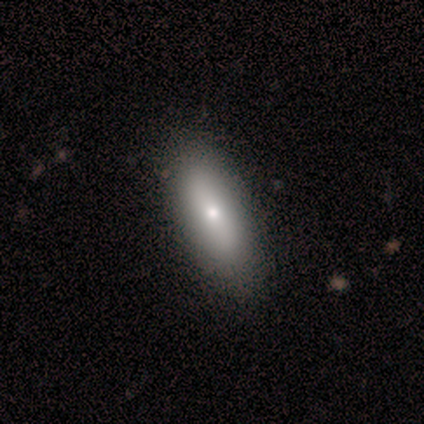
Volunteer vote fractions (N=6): This is possibly a smooth galaxy (50%, tied with featured or disk). How rounded: clearly in between (100%). Merging: clearly none (83%).